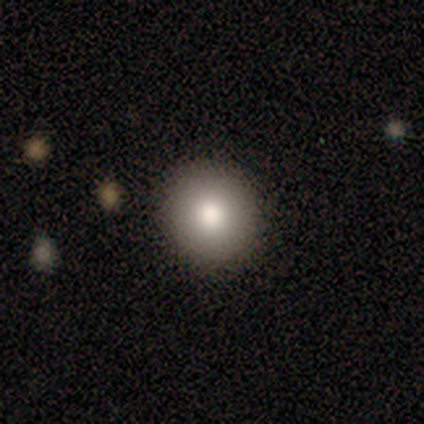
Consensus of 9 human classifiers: Volunteers were most divided on "smooth or featured": smooth: 56%, featured or disk: 33%, star or artifact: 11%. More confident: how rounded — round (100%); merging — none (88%).